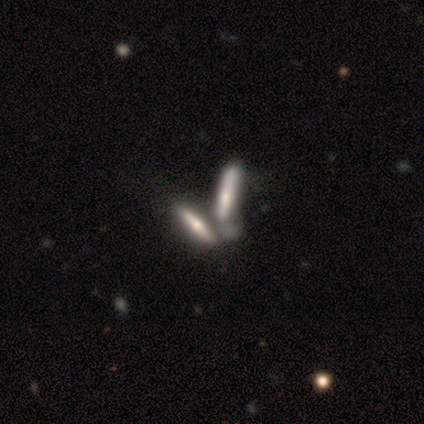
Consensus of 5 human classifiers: This is likely a smooth galaxy (60%). How rounded: likely cigar-shaped (67%). Merging: likely merger (60%).